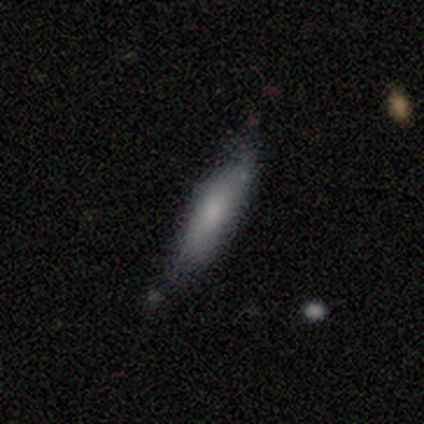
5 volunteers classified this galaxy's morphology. Smooth or featured? smooth (100%)
How rounded? cigar-shaped (80%)
Merging? none (80%)